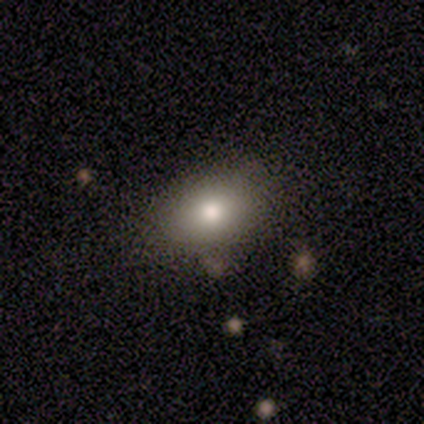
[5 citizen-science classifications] A smooth galaxy with no disk features (60%) that is in between round and cigar-shaped (100%). Merging: none (50%, tied with minor disturbance).